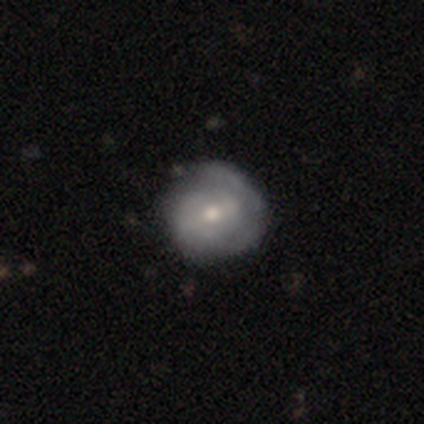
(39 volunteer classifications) Morphology: type=featured or disk (72%); edge-on=no (96%); bar=no (44%); spiral arms=yes (70%); winding=tight (53%); arm count=can't tell (47%); bulge=moderate (59%); merging=none (54%).